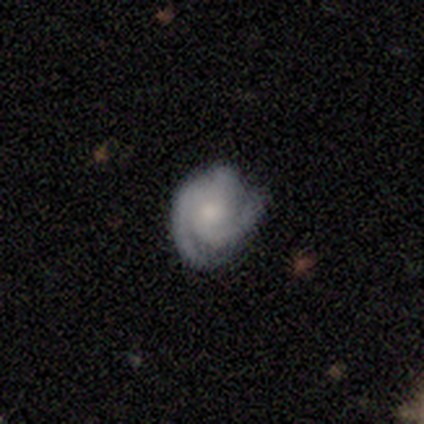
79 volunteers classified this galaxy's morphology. Overall: featured or disk (81%). Edge-on disk: no (98%). Bar: no (79%). Spiral arms: yes (98%). Spiral arm count: 2 (44%; 3 42%). Spiral winding: tight (63%; medium 32%). Bulge size: moderate (44%; small 37%). Merging: none (35%; minor disturbance 14%).